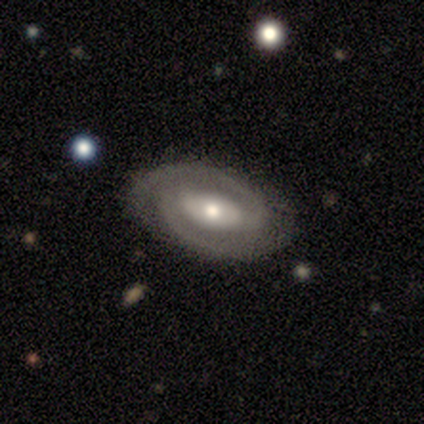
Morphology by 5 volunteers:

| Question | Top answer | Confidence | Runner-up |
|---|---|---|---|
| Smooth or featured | featured or disk | 60% | smooth (20%) |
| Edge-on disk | no | 100% | — |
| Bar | weak | 100% | — |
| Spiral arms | yes | 100% | — |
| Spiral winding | medium | 100% | — |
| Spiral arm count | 2 | 100% | — |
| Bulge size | moderate | 67% | small (33%) |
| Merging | none | 75% | minor disturbance (25%) |